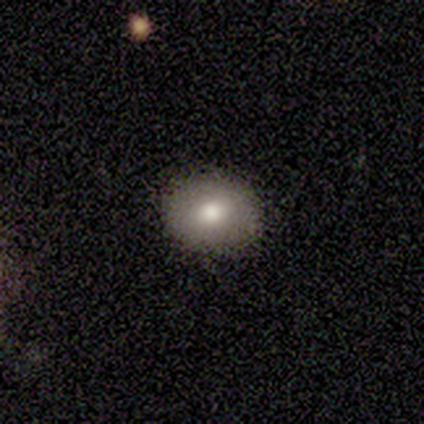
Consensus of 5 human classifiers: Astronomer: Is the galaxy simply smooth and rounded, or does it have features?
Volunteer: smooth — 40%, tied with featured or disk at 40%.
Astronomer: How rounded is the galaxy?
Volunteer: round — 50%, tied with in between at 50%.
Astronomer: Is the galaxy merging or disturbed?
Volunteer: none — 100%.